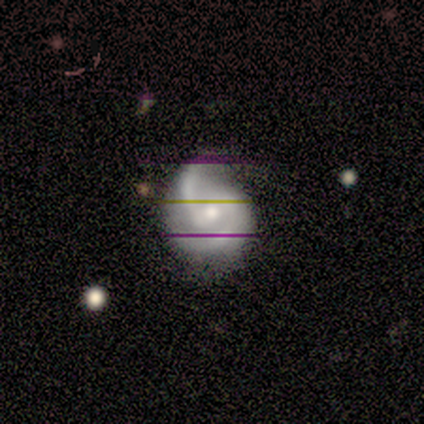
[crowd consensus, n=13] A featured or disk galaxy (85%) with a weak bar (73%), 2 (100%) medium (64%) spiral arms (100%) and a moderate central bulge (55%).

Vote fractions:
- Smooth or featured? featured or disk: 85% / star or artifact: 15% / smooth: 0%
- Edge-on disk? no: 100% / yes: 0%
- Bar? weak: 73% / strong: 18% / no: 9%
- Spiral arms? yes: 100% / no: 0%
- Spiral winding? medium: 64% / loose: 27% / tight: 9%
- Spiral arm count? 2: 100% / 1: 0% / 3: 0% / 4: 0% / more than 4: 0% / can't tell: 0%
- Bulge size? moderate: 55% / small: 45% / dominant: 0% / large: 0% / none: 0%
- Merging? none: 73% / minor disturbance: 18% / major disturbance: 9% / merger: 0%